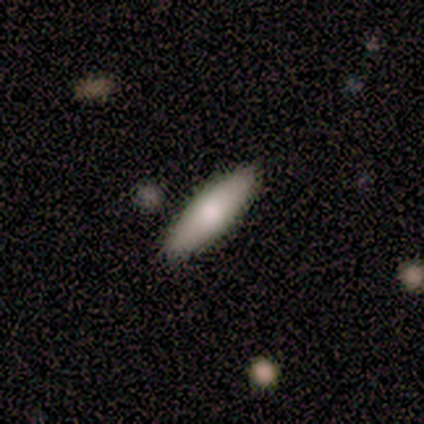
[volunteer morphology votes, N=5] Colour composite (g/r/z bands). It shows a smooth galaxy with no disk features (100%) that is in between round and cigar-shaped (60%). Merging: none (100%).